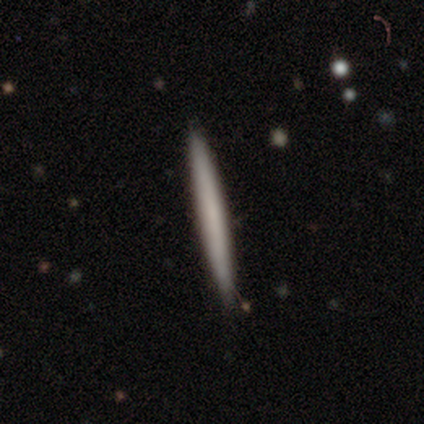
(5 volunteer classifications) Overall: smooth (40%, tied with featured or disk). How rounded: cigar-shaped (100%). Merging: none (100%).